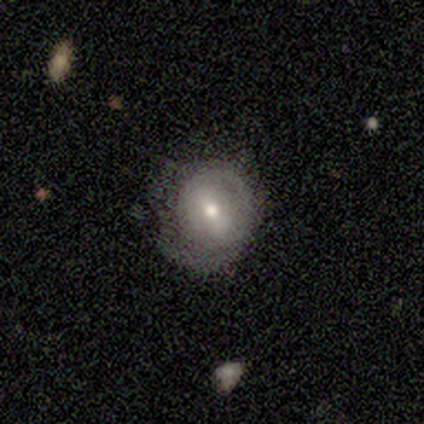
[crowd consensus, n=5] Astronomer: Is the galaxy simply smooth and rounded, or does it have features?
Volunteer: featured or disk — 80%.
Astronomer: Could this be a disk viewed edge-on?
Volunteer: no — 100%.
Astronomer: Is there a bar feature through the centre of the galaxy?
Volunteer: strong — 50%.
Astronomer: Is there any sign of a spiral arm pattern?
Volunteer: yes — 50%, tied with no at 50%.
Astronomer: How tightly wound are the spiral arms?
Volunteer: tight — 50%, tied with loose at 50%.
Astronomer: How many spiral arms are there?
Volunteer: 1 — 50%, tied with 2 at 50%.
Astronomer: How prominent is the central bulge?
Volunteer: moderate — 50%, tied with small at 50%.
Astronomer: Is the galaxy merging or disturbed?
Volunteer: none — 100%.